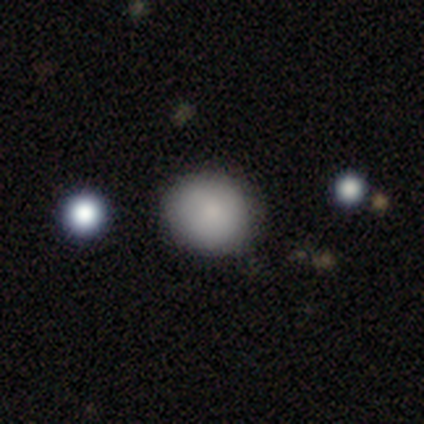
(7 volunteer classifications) Smooth or featured? smooth (86%)
How rounded? round (100%)
Merging? none (71%)